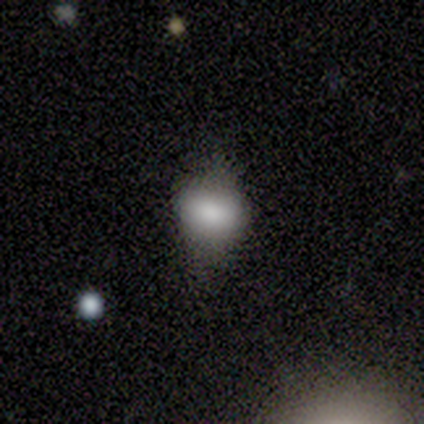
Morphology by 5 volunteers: Volunteers were most divided on "merging" (2-way tie): none: 40%, minor disturbance: 40%, major disturbance: 20%, merger: 0%. More confident: how rounded — in between (100%); smooth or featured — smooth (80%).